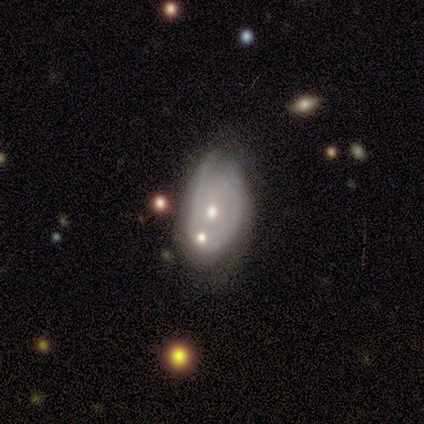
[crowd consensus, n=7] This appears to be a smooth galaxy with no disk features (57%) that is in between round and cigar-shaped (100%). Merging: none (43%).